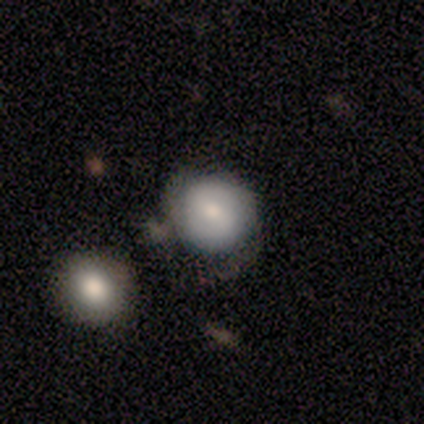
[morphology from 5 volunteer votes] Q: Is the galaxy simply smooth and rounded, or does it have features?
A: smooth — 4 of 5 (80%).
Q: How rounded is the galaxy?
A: round — 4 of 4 (100%).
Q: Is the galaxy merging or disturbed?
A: none — 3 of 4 (75%).